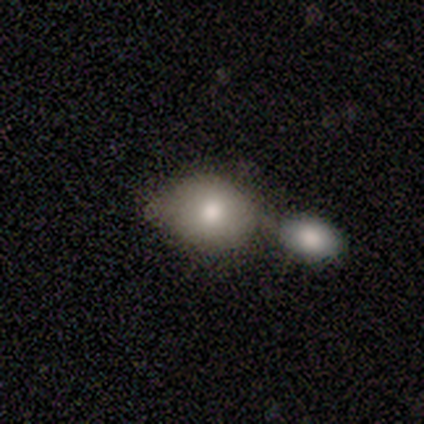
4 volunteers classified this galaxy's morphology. A smooth galaxy with no disk features (100%) that is round (50%, tied with in between). Merging: none (50%).